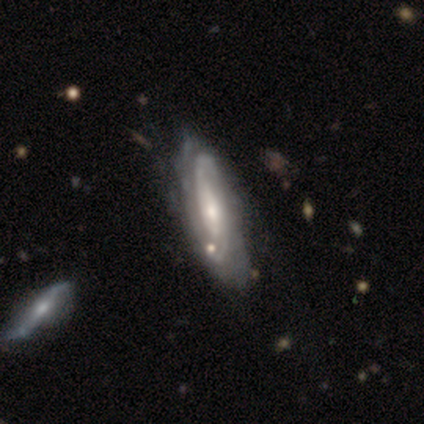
Smooth or featured? 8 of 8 (100%) said featured or disk. Edge-on disk? 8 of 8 (100%) said no. Bar? 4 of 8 (50%, tied with no) said weak. Spiral arms? 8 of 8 (100%) said yes. Spiral winding? 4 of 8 (50%, tied with medium) said tight. Spiral arm count? 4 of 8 (50%) said can't tell. Bulge size? 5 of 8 (62%) said moderate. Merging? 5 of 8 (62%) said none.